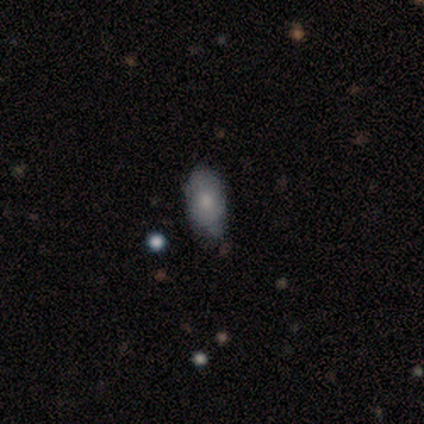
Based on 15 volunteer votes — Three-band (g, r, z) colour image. It shows a smooth galaxy with no disk features (47%, tied with featured or disk) that is in between round and cigar-shaped (100%). Merging: none (57%).